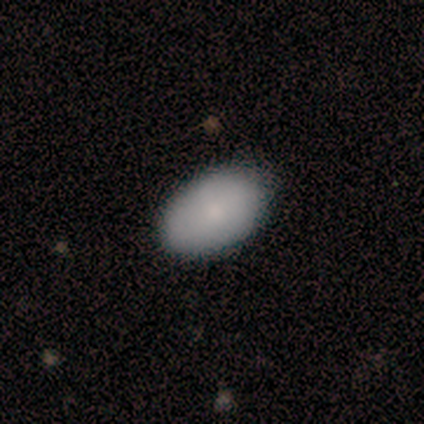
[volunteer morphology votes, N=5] type=smooth (60%); roundness=in between (100%); merging=none (75%).